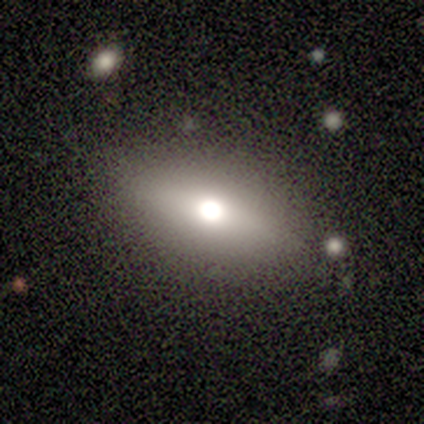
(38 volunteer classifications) Smooth or featured? smooth (61%)
How rounded? in between (78%)
Merging? none (83%)